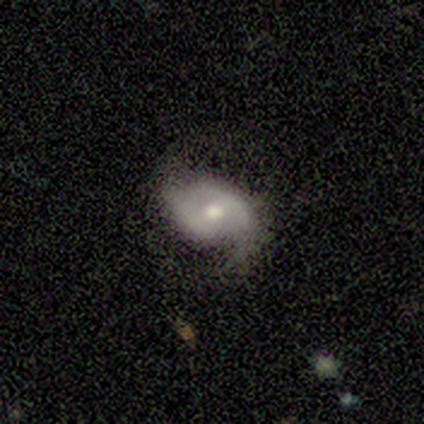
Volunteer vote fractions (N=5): featured or disk 60%, smooth 20%, star or artifact 20%. Down the decision tree: edge-on disk — no (100%); bar — no (67%); spiral arms — yes (100%); spiral arm count — 2 (100%); spiral winding — medium (67%); bulge size — moderate (100%); merging — none (75%).